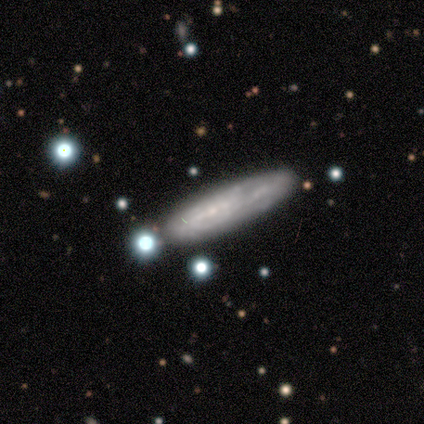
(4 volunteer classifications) Volunteers were most divided on "how rounded": cigar-shaped: 75%, in between: 25%, round: 0%. More confident: smooth or featured — smooth (100%); merging — none (75%).